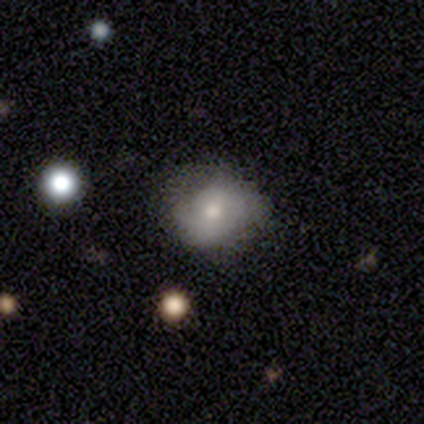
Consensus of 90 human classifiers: smooth 60%, featured or disk 30%, star or artifact 10%. Down the decision tree: how rounded — round (78%); merging — none (62%).